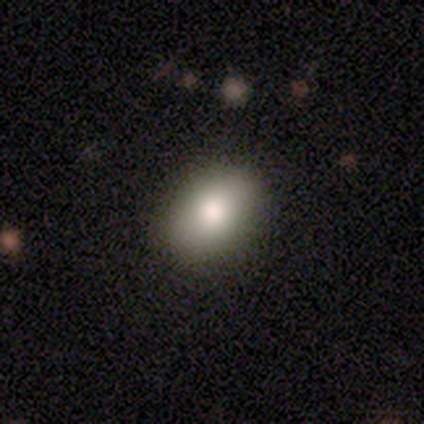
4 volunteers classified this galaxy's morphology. Smooth or featured: smooth — 100%
How rounded: round — 50% (tied with in between — 50%)
Merging: none — 100%